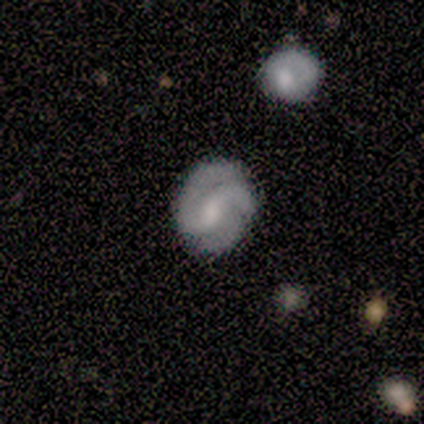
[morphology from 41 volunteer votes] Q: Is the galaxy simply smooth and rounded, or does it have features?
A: featured or disk — 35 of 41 (85%).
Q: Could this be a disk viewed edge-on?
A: no — 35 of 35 (100%).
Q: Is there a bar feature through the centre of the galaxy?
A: weak — 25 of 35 (71%).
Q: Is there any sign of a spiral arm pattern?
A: yes — 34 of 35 (97%).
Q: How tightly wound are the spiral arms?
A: tight — 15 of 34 (44%).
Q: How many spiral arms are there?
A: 2 — 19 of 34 (56%).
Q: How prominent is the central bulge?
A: moderate — 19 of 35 (54%).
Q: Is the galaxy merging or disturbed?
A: none — 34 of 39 (87%).